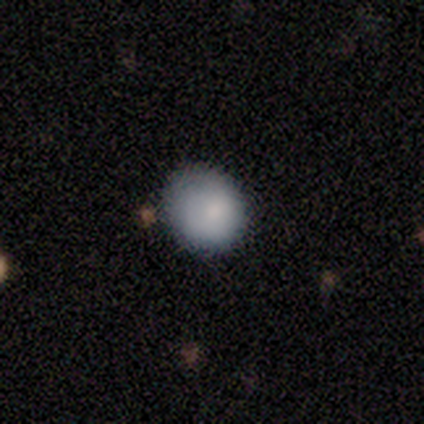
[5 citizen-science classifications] smooth_or_featured: smooth (p=1.00)
how_rounded: round (p=1.00)
merging: none (p=0.80) [alt: minor disturbance p=0.20]